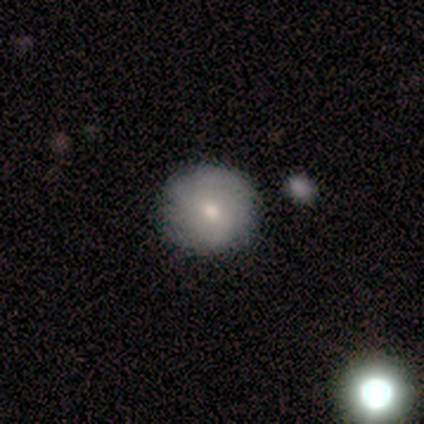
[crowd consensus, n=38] Smooth or featured: smooth — 55% (featured or disk — 42%)
How rounded: round — 100%
Merging: none — 86% (minor disturbance — 8%)